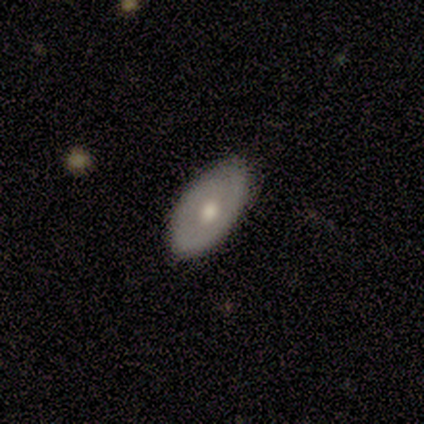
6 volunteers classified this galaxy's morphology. Smooth or featured? 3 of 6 (50%, tied with featured or disk) said smooth. How rounded? 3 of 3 (100%) said in between. Merging? 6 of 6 (100%) said none.